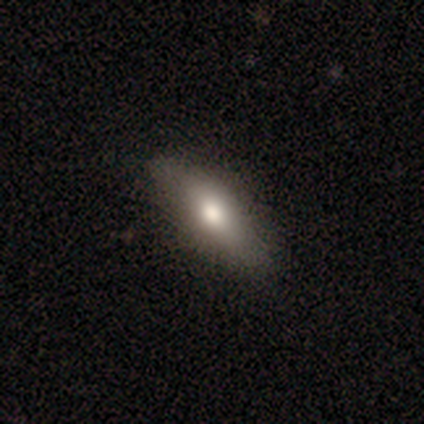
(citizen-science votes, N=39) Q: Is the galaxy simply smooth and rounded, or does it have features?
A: smooth — 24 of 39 (62%).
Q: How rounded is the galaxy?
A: in between — 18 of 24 (75%).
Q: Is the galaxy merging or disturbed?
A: none — 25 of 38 (66%).